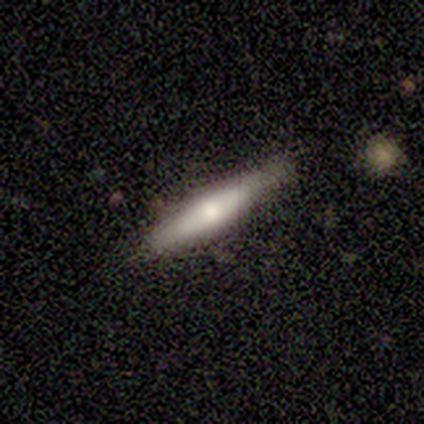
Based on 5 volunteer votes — This appears to be a smooth galaxy with no disk features (60%) that is cigar-shaped (67%). Merging: none (67%).